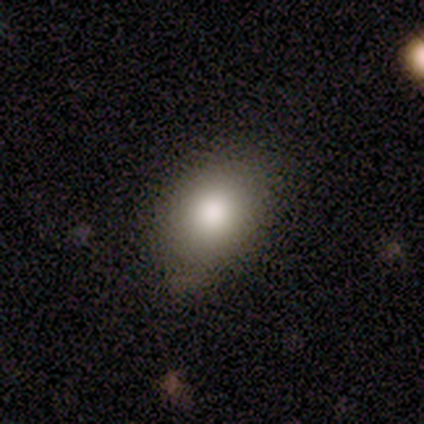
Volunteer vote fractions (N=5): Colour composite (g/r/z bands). It shows a smooth galaxy with no disk features (80%) that is in between round and cigar-shaped (100%). Merging: none (80%).